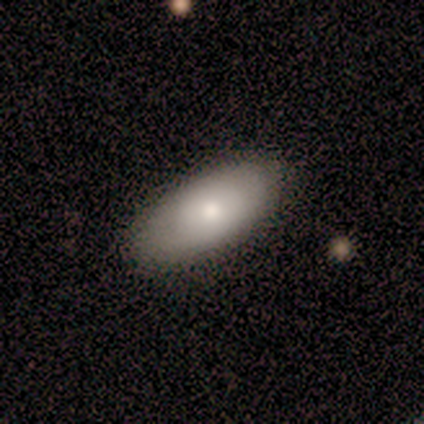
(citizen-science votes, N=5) Volunteers were most divided on "how rounded": in between: 60%, cigar-shaped: 40%, round: 0%. More confident: smooth or featured — smooth (100%); merging — none (80%).